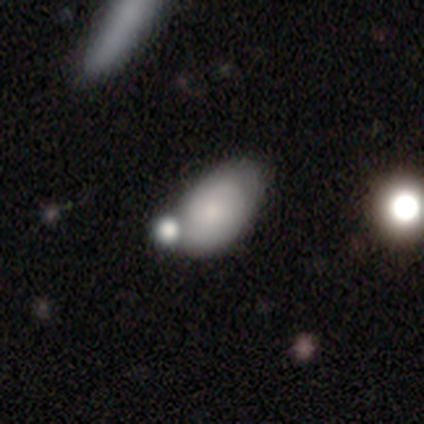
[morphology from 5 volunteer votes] A smooth galaxy with no disk features (60%) that is round (67%).

Vote fractions:
- Smooth or featured? smooth: 60% / featured or disk: 20% / star or artifact: 20%
- How rounded? round: 67% / in between: 33% / cigar-shaped: 0%
- Merging? none: 75% / minor disturbance: 25% / major disturbance: 0% / merger: 0%